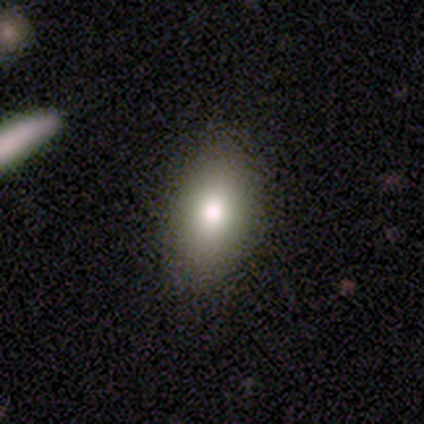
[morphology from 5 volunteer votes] Smooth or featured? 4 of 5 (80%) said smooth. How rounded? 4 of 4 (100%) said in between. Merging? 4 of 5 (80%) said none.